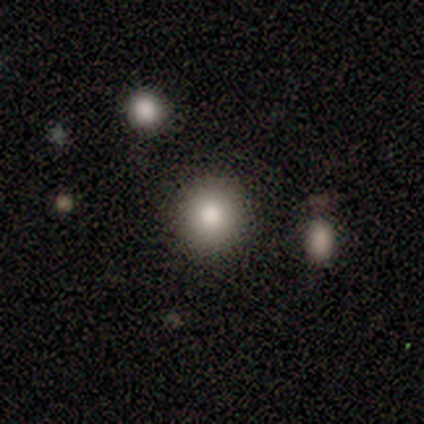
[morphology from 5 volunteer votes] smooth-or-featured: smooth: 80% | featured or disk: 20% | star or artifact: 0%
  how-rounded: round: 100% | in between: 0% | cigar-shaped: 0%
  merging: none: 100% | minor disturbance: 0% | major disturbance: 0% | merger: 0%